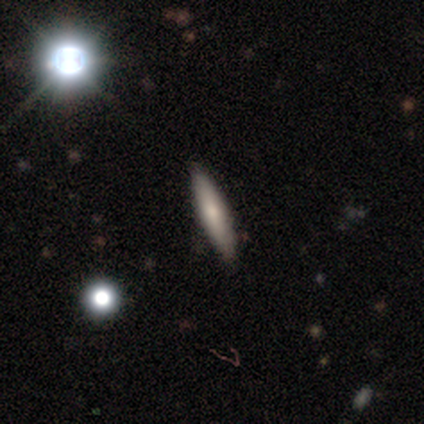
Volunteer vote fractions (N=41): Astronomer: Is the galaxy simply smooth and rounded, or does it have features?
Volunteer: smooth — 71%.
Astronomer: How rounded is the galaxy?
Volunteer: cigar-shaped — 79%.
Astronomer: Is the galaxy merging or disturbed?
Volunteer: none — 89%.